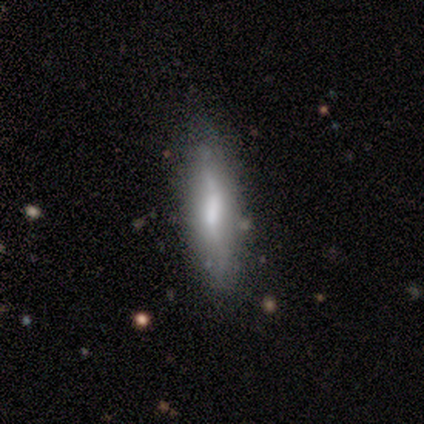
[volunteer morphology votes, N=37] Smooth or featured? 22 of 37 (59%) said featured or disk. Edge-on disk? 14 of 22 (64%) said yes. Edge-on bulge? 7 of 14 (50%) said rounded. Merging? 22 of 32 (69%) said none.